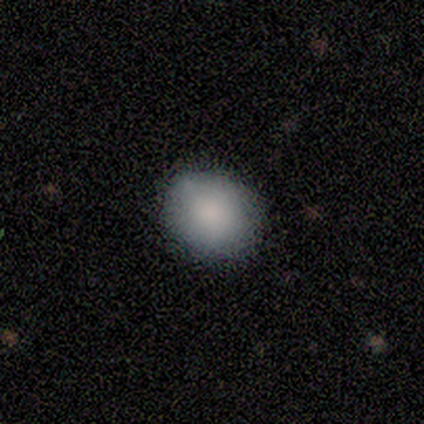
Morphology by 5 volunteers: Volunteers were most divided on "how rounded": round: 75%, in between: 25%, cigar-shaped: 0%. More confident: merging — none (100%); smooth or featured — smooth (80%).